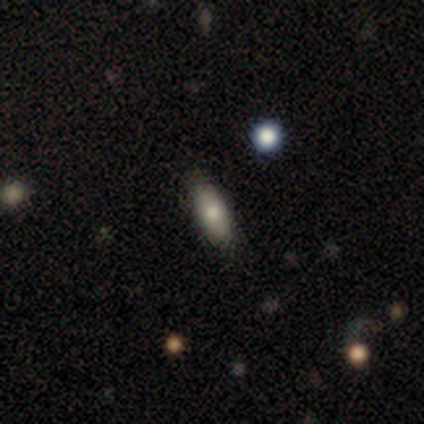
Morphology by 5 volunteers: This is clearly a smooth galaxy (100%). How rounded: clearly in between (80%). Merging: clearly none (80%).